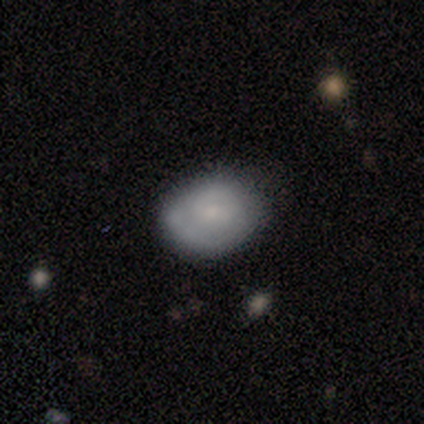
smooth-or-featured: smooth: 100% | featured or disk: 0% | star or artifact: 0%
  how-rounded: in between: 67% | round: 33% | cigar-shaped: 0%
  merging: minor disturbance: 67% | none: 33% | major disturbance: 0% | merger: 0%